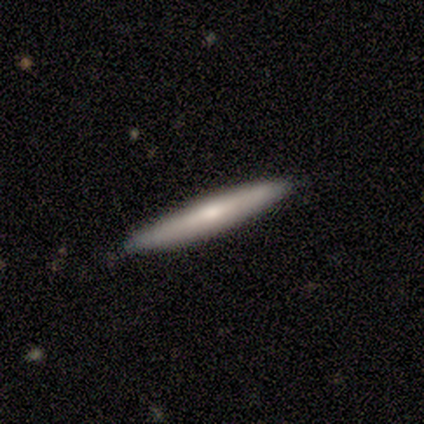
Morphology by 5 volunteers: type=featured or disk (60%); edge-on=yes (100%); edge-on bulge=none (67%); merging=none (80%).